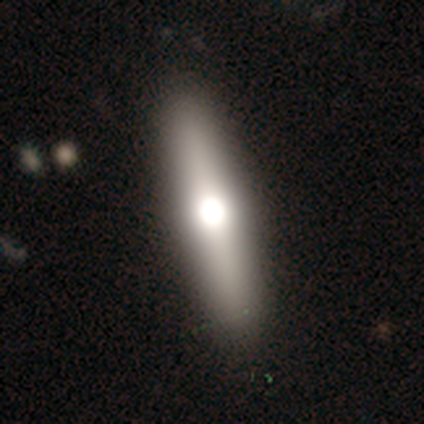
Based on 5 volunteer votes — smooth 40% (tied), featured or disk 40% (tied), star or artifact 20%. Down the decision tree: how rounded — in between (50%, tied with cigar-shaped); merging — none (100%).